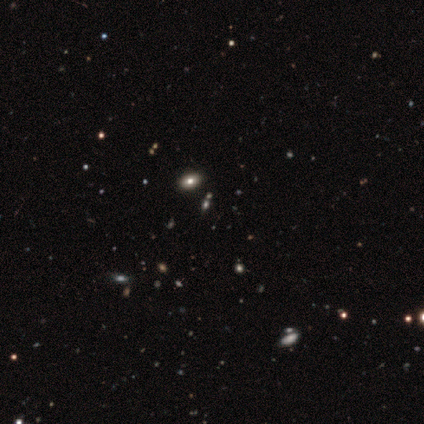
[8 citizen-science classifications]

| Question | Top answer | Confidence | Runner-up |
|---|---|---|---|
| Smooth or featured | star or artifact | 75% | smooth (25%) |